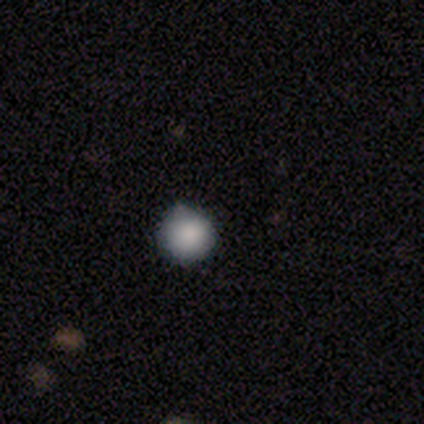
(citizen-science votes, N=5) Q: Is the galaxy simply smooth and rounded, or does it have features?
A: smooth — 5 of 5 (100%).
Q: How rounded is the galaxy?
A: round — 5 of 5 (100%).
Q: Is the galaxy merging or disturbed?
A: minor disturbance — 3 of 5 (60%).